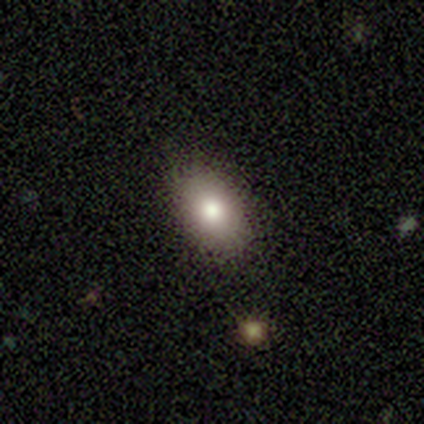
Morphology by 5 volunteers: Overall: smooth (80%). How rounded: in between (100%). Merging: none (100%).